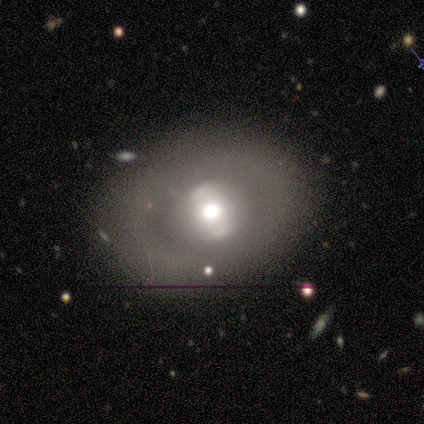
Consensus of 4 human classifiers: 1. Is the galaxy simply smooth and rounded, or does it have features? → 75% featured or disk, 25% star or artifact, 0% smooth.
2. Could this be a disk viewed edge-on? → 100% no, 0% yes.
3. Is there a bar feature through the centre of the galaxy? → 100% no, 0% strong, 0% weak.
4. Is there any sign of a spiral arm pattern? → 100% no, 0% yes.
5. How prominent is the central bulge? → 100% moderate, 0% dominant, 0% large, 0% small, 0% none.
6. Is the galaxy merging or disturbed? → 100% none, 0% minor disturbance, 0% major disturbance, 0% merger.